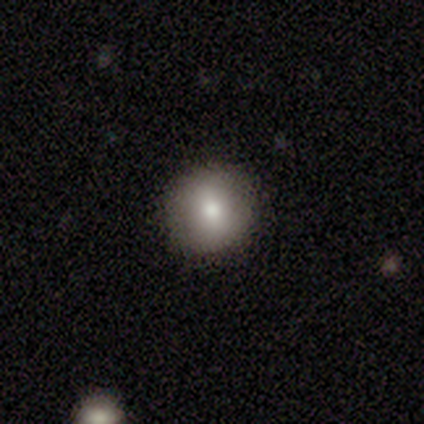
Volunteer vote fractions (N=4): Overall: smooth (100%). How rounded: round (100%). Merging: none (100%).